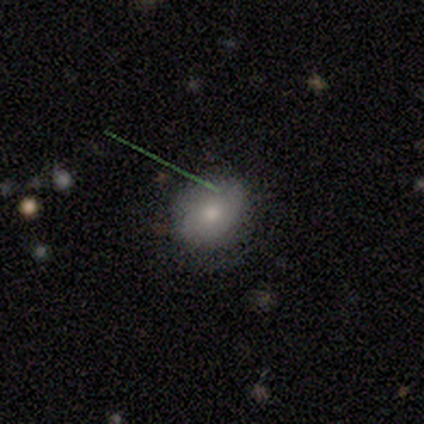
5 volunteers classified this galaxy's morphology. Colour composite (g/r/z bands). It shows a smooth galaxy with no disk features (60%) that is round (67%). Merging: none (100%).